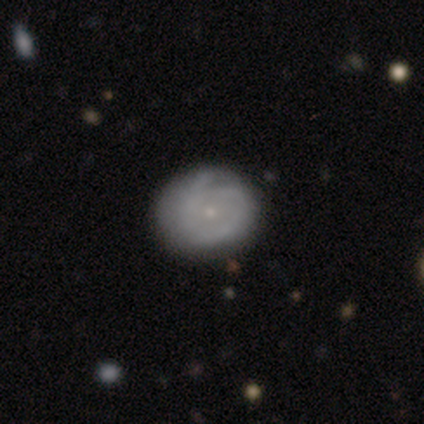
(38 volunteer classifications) A featured or disk galaxy (71%) with no bar (92%), tight (61%) spiral arms (69%) and a small central bulge (85%). Merging: none (46%).